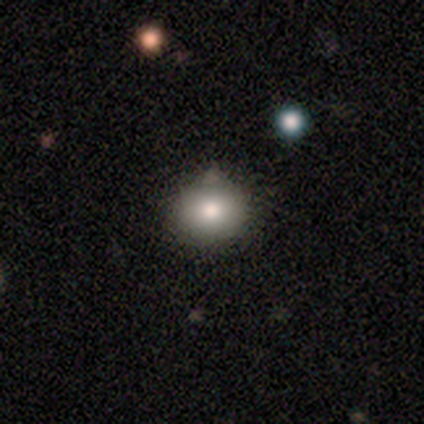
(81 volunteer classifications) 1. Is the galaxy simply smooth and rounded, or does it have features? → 75% smooth, 14% star or artifact, 11% featured or disk.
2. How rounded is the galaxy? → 82% round, 18% in between, 0% cigar-shaped.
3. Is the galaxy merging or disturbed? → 80% none, 17% minor disturbance, 1% major disturbance, 1% merger.